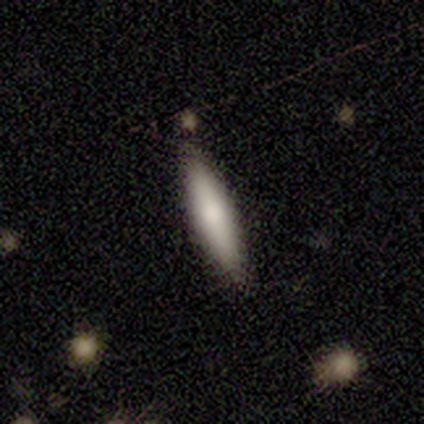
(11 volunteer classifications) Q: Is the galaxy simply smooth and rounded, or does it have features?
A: smooth — 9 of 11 (82%).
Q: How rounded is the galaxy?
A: cigar-shaped — 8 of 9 (89%).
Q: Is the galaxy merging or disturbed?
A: none — 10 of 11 (91%).